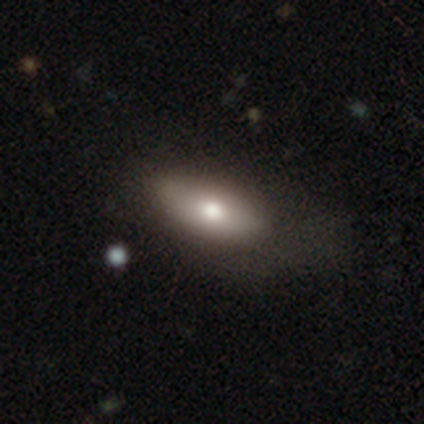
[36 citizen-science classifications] This appears to be a smooth galaxy with no disk features (53%) that is in between round and cigar-shaped (89%). Merging: none (56%).